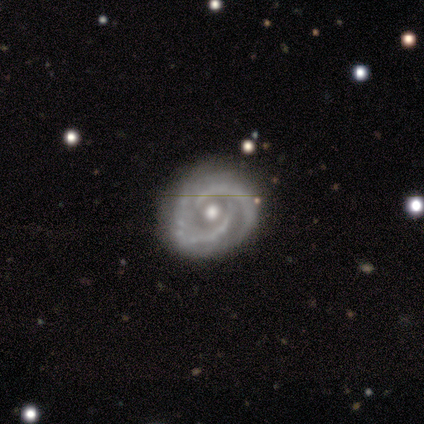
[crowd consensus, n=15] featured or disk 100%, smooth 0%, star or artifact 0%. Down the decision tree: edge-on disk — no (100%); bar — no (80%); spiral arms — yes (93%); spiral arm count — 2 (93%); spiral winding — tight (57%); bulge size — moderate (80%); merging — none (67%).